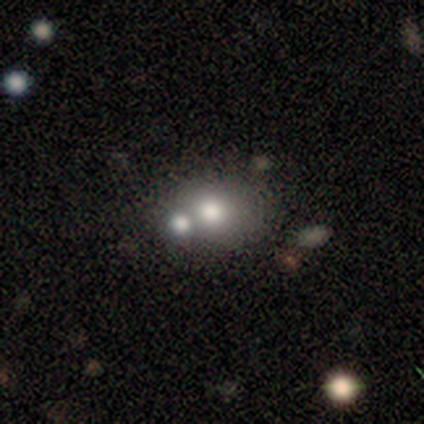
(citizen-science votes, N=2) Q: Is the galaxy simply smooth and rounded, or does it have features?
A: smooth — 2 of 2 (100%).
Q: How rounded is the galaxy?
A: in between — 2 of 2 (100%).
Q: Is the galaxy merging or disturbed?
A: none — 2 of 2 (100%).